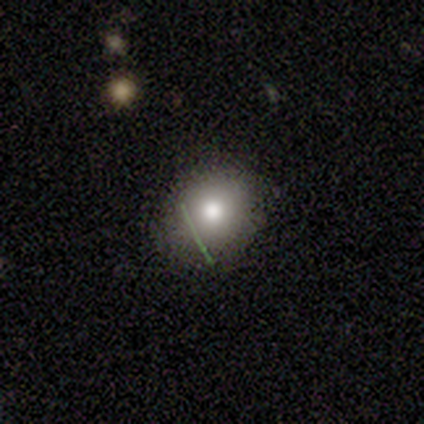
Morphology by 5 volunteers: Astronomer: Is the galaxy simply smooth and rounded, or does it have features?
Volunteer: smooth — 60% (runner-up: star or artifact, 40%).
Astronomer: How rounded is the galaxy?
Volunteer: round — 100%.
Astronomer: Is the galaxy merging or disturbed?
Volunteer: none — 100%.